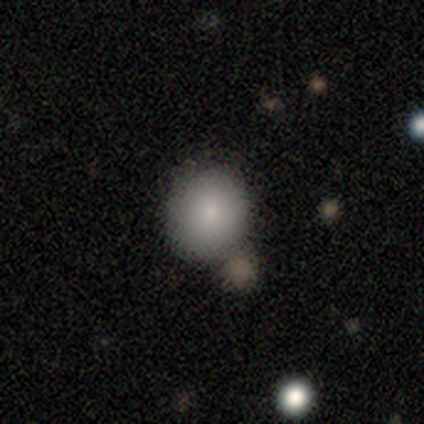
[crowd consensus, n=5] Smooth or featured?
  - smooth: 60% *
  - featured or disk: 20%
  - star or artifact: 20%
How rounded?
  - round: 100% *
  - in between: 0%
  - cigar-shaped: 0%
Merging?
  - none: 50% * (tied)
  - merger: 50% * (tied)
  - minor disturbance: 0%
  - major disturbance: 0%